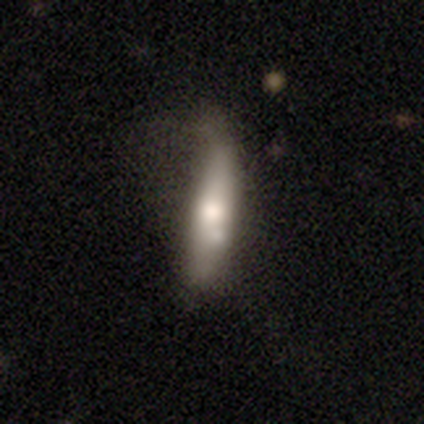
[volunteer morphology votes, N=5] A smooth galaxy with no disk features (80%) that is cigar-shaped (100%).

Vote fractions:
- Smooth or featured? smooth: 80% / featured or disk: 20% / star or artifact: 0%
- How rounded? cigar-shaped: 100% / round: 0% / in between: 0%
- Merging? none: 80% / minor disturbance: 20% / major disturbance: 0% / merger: 0%